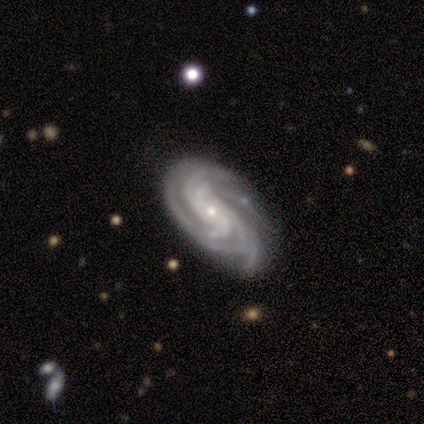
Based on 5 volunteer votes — This is clearly a featured or disk galaxy (100%). It is clearly not viewed edge-on (100%). Bar: likely no (60%). Spiral arm pattern: clearly yes (100%). Spiral arm count: likely 4 (60%). Spiral winding: clearly tight (80%). Central bulge: clearly small (100%). Merging: likely minor disturbance (60%).